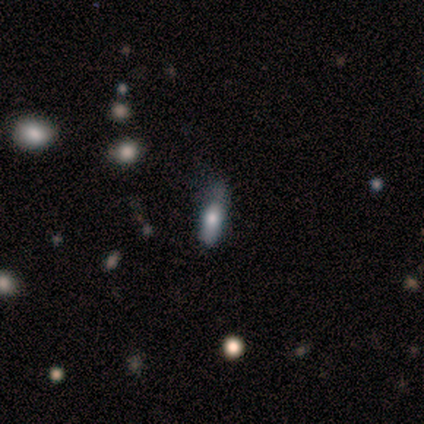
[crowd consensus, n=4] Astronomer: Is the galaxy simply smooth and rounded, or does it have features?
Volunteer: smooth — 100%.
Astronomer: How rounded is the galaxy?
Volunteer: in between — 50%, tied with cigar-shaped at 50%.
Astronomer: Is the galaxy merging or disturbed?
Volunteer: minor disturbance — 50%, tied with major disturbance at 50%.